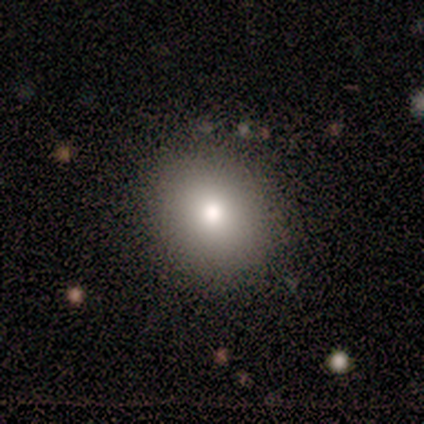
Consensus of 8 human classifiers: Smooth or featured? 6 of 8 (75%) said smooth. How rounded? 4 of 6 (67%) said round. Merging? 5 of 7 (71%) said none.